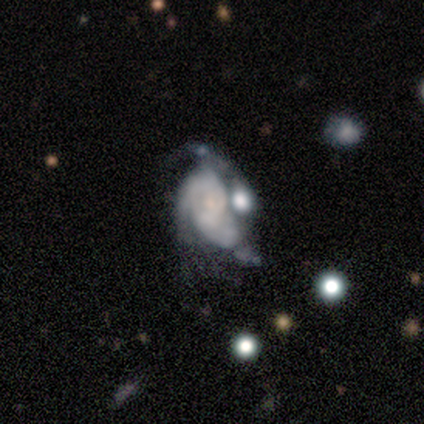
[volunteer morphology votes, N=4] type=featured or disk (100%); edge-on=no (100%); bar=no (75%); spiral arms=yes (100%); winding=tight (50%); arm count=3 (50%); bulge=small (75%); merging=none (50%).